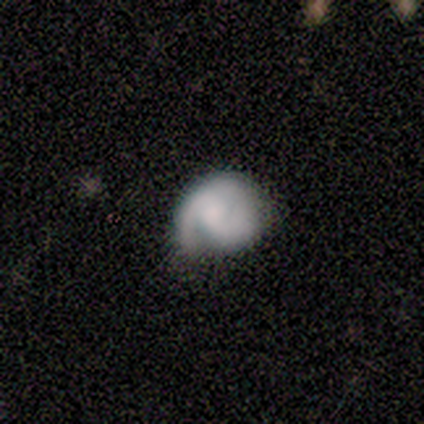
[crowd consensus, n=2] This appears to be a smooth galaxy with no disk features (50%, tied with featured or disk) that is round (100%). Merging: major disturbance (100%).